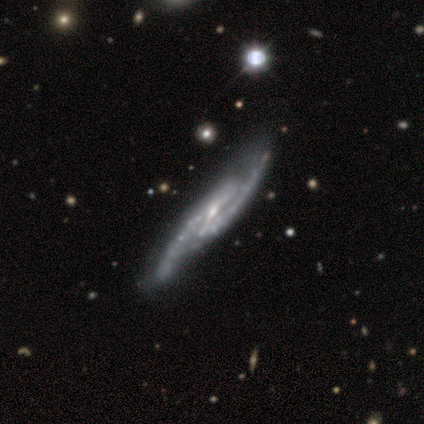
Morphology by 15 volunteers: featured or disk 93%, smooth 7%, star or artifact 0%. Down the decision tree: edge-on disk — no (71%); bar — strong (70%); spiral arms — yes (100%); spiral arm count — 2 (90%); spiral winding — medium (60%); bulge size — small (60%); merging — none (73%).